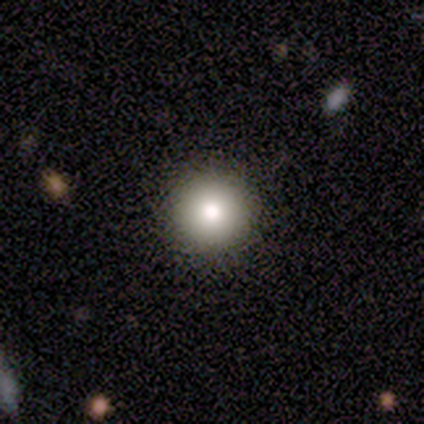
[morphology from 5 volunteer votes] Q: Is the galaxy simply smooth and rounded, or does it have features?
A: smooth — 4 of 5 (80%).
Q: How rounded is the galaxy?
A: round — 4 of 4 (100%).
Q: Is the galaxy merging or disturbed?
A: none — 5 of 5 (100%).